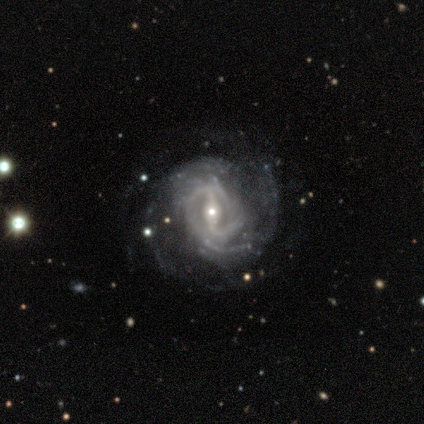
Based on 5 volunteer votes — Smooth or featured? featured or disk (100%)
Edge-on disk? no (100%)
Bar? strong (40%, tied with no)
Spiral arms? yes (100%)
Spiral winding? tight (40%, tied with loose)
Spiral arm count? 2 (40%, tied with can't tell)
Bulge size? small (100%)
Merging? none (80%)